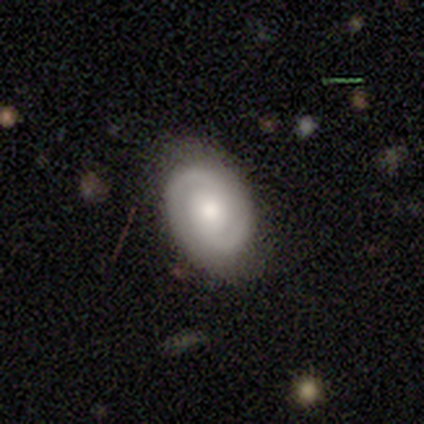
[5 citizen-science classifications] A smooth galaxy with no disk features (60%) that is in between round and cigar-shaped (100%).

Vote fractions:
- Smooth or featured? smooth: 60% / featured or disk: 40% / star or artifact: 0%
- How rounded? in between: 100% / round: 0% / cigar-shaped: 0%
- Merging? none: 80% / minor disturbance: 20% / major disturbance: 0% / merger: 0%